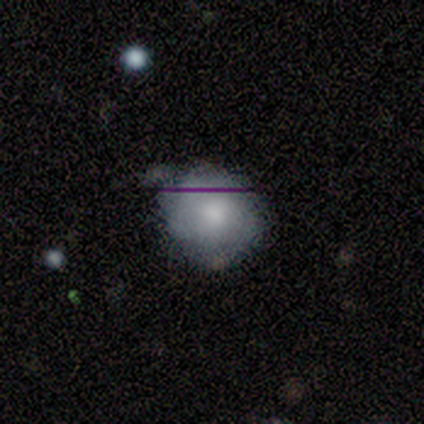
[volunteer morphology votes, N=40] Volunteers were most divided on "smooth or featured" (2-way tie): smooth: 45%, featured or disk: 45%, star or artifact: 10%. More confident: how rounded — round (72%); merging — none (53%).